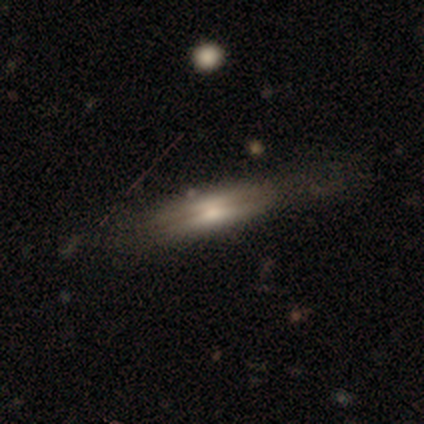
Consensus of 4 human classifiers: Smooth or featured? featured or disk (75%)
Edge-on disk? yes (100%)
Edge-on bulge? rounded (67%)
Merging? none (100%)